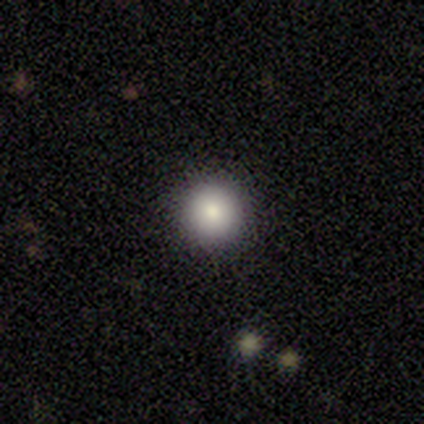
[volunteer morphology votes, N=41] Smooth or featured: smooth — 76% (star or artifact — 15%)
How rounded: round — 97% (in between — 3%)
Merging: none — 94% (minor disturbance — 6%)